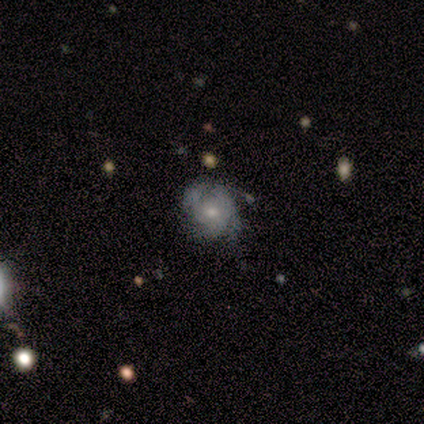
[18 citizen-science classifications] Smooth or featured? featured or disk (83%)
Edge-on disk? no (93%)
Bar? no (100%)
Spiral arms? yes (79%)
Spiral winding? tight (45%)
Spiral arm count? can't tell (55%)
Bulge size? small (57%)
Merging? none (50%)